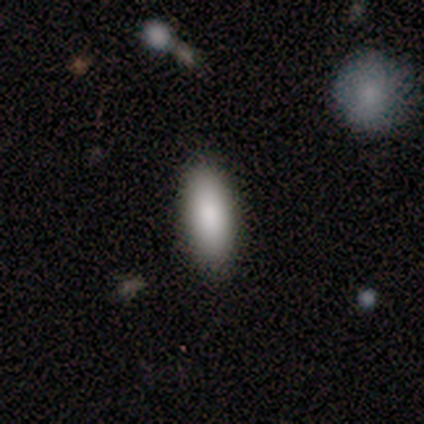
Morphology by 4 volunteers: type=smooth (75%); roundness=in between (67%); merging=none (100%).